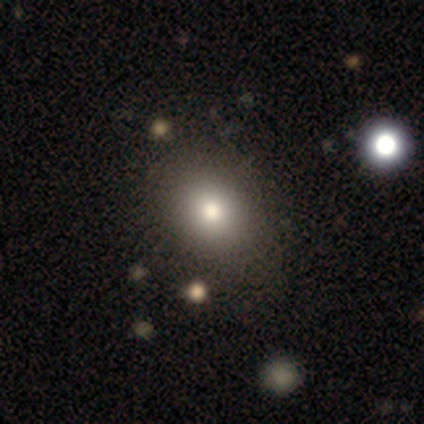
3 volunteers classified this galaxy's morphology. smooth 67%, featured or disk 33%, star or artifact 0%. Down the decision tree: how rounded — round (50%, tied with in between); merging — none (100%).